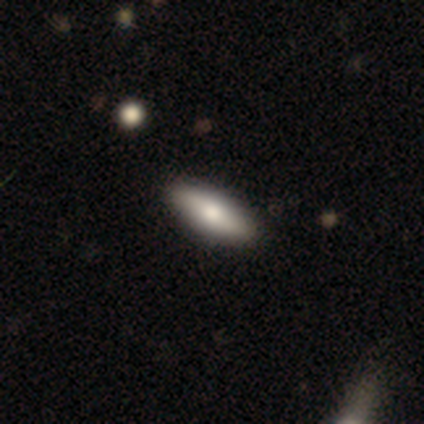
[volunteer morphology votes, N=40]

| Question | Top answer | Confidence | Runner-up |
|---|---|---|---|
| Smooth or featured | smooth | 65% | featured or disk (32%) |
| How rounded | in between | 62% | cigar-shaped (38%) |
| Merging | none | 95% | minor disturbance (5%) |